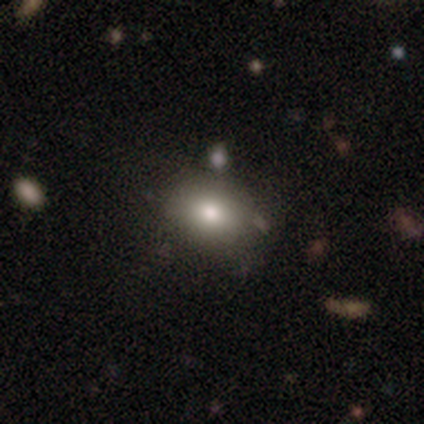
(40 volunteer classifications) Morphology: type=smooth (72%); roundness=in between (72%); merging=none (74%).